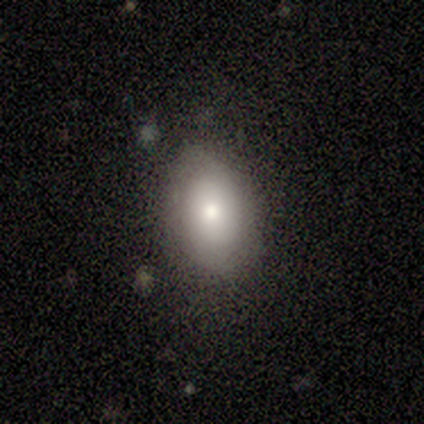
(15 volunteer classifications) Volunteers were most divided on "how rounded": in between: 75%, round: 25%, cigar-shaped: 0%. More confident: merging — none (87%); smooth or featured — smooth (80%).